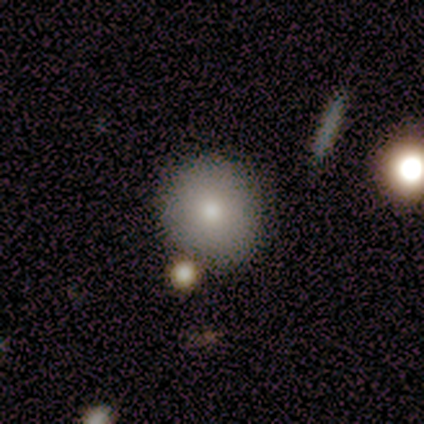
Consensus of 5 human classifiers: Smooth or featured?
  - smooth: 80% *
  - star or artifact: 20%
  - featured or disk: 0%
How rounded?
  - round: 100% *
  - in between: 0%
  - cigar-shaped: 0%
Merging?
  - none: 100% *
  - minor disturbance: 0%
  - major disturbance: 0%
  - merger: 0%